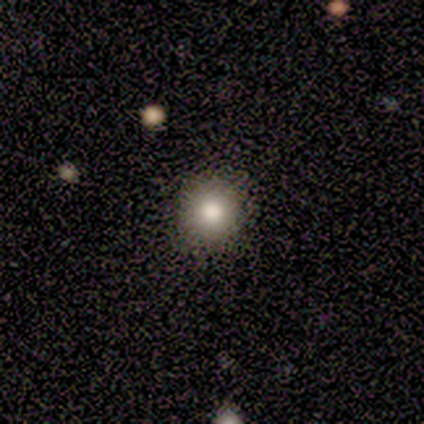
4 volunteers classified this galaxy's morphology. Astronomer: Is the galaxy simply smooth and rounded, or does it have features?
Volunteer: smooth — 100%.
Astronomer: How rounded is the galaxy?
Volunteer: round — 100%.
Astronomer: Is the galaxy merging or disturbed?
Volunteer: none — 100%.